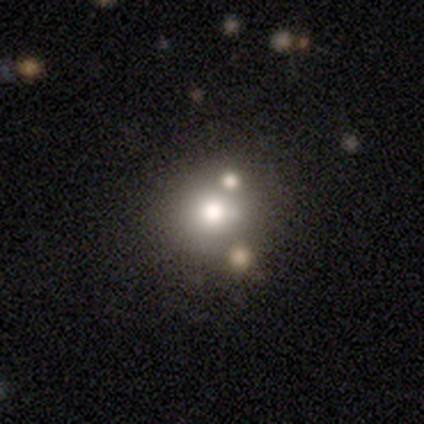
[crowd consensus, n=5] smooth_or_featured: smooth (p=0.40) [tied with: star or artifact p=0.40]
how_rounded: round (p=1.00)
merging: minor disturbance (p=0.67) [alt: none p=0.33]